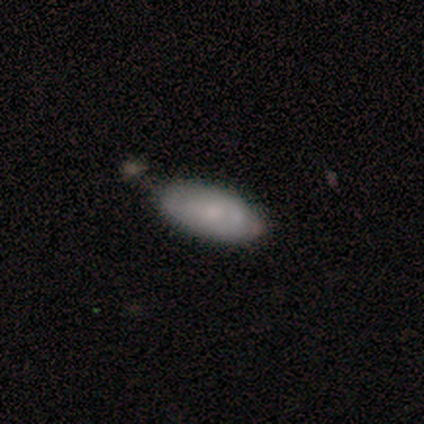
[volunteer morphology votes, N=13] A smooth galaxy with no disk features (77%) that is in between round and cigar-shaped (100%). Merging: none (46%).